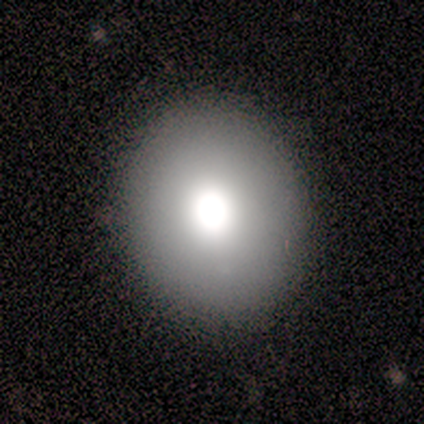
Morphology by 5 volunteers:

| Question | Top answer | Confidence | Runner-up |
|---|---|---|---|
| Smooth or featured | smooth | 80% | featured or disk (20%) |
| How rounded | round | 100% | — |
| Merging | none | 100% | — |